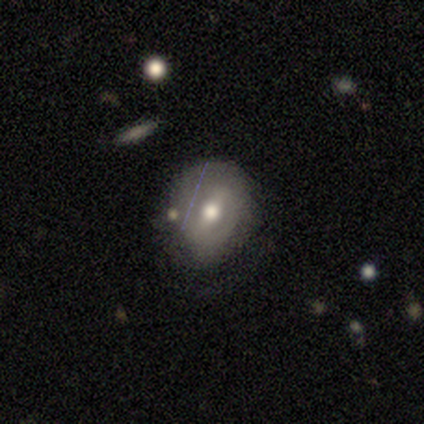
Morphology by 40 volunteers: Overall: featured or disk (55%; smooth 42%). Edge-on disk: no (77%). Bar: strong (53%; weak 35%). Spiral arms: no (53%; yes 47%). Bulge size: moderate (82%). Merging: none (62%; minor disturbance 26%).